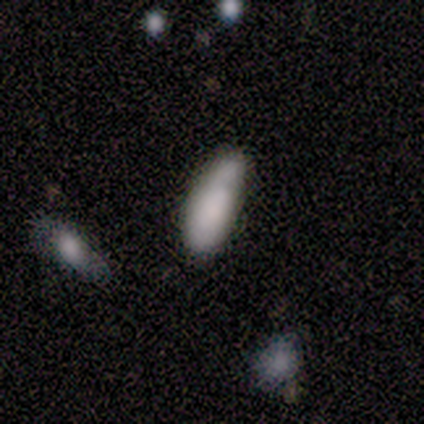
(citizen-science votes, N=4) Volunteers were most divided on "merging" (3-way tie): none: 33%, minor disturbance: 33%, merger: 33%, major disturbance: 0%. More confident: smooth or featured — smooth (75%); how rounded — in between (67%).